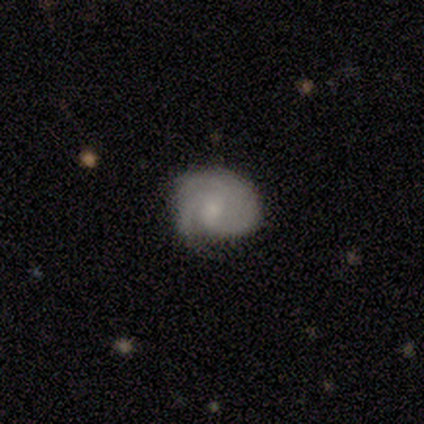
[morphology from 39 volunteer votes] Smooth or featured: featured or disk — 77% (smooth — 18%)
Edge-on disk: no — 100%
Bar: no — 60% (weak — 40%)
Spiral arms: yes — 93% (no — 7%)
Spiral winding: tight — 61% (medium — 29%)
Spiral arm count: 2 — 36% (3 — 25%)
Bulge size: small — 63% (none — 20%)
Merging: none — 65% (minor disturbance — 16%)